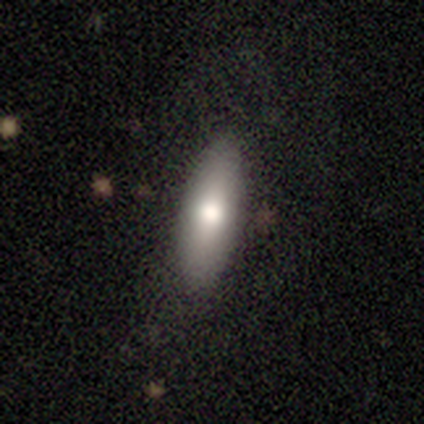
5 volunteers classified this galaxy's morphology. This appears to be a smooth galaxy with no disk features (80%) that is in between round and cigar-shaped (75%). Merging: none (100%).